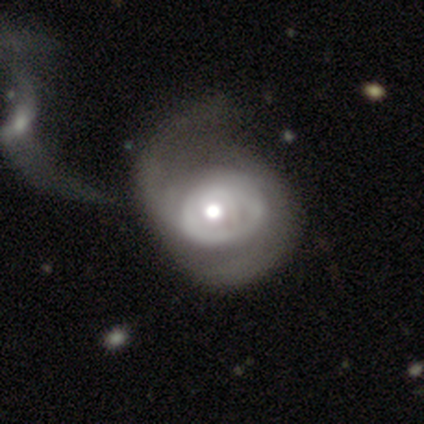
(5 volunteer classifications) Smooth or featured? 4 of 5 (80%) said featured or disk. Edge-on disk? 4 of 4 (100%) said no. Bar? 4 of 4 (100%) said no. Spiral arms? 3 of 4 (75%) said yes. Spiral winding? 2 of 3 (67%) said tight. Spiral arm count? 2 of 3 (67%) said can't tell. Bulge size? 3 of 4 (75%) said moderate. Merging? 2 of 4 (50%) said merger.